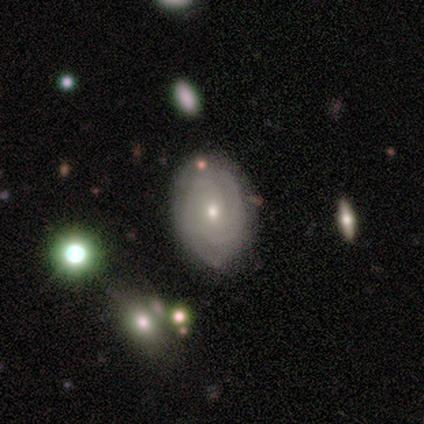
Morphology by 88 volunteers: A featured or disk galaxy (73%) with no bar (74%), 2 (41%) tight (73%) spiral arms (90%) and a small central bulge (71%). Merging: none (72%).